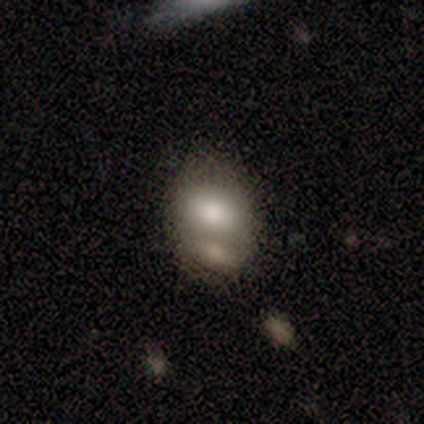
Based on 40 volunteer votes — Smooth or featured?
  - smooth: 70% *
  - featured or disk: 18%
  - star or artifact: 12%
How rounded?
  - in between: 93% *
  - round: 7%
  - cigar-shaped: 0%
Merging?
  - merger: 66% *
  - none: 26%
  - minor disturbance: 6%
  - major disturbance: 3%